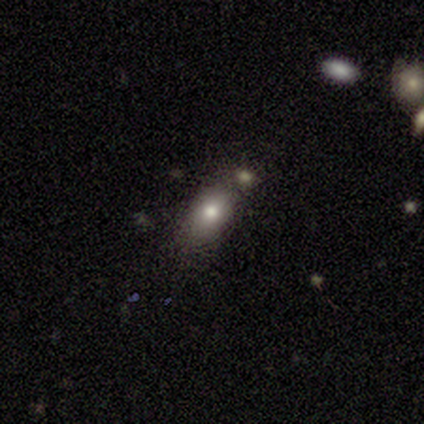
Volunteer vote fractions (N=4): This appears to be a smooth galaxy with no disk features (75%) that is in between round and cigar-shaped (100%). Merging: none (33%, tied with minor disturbance and merger).